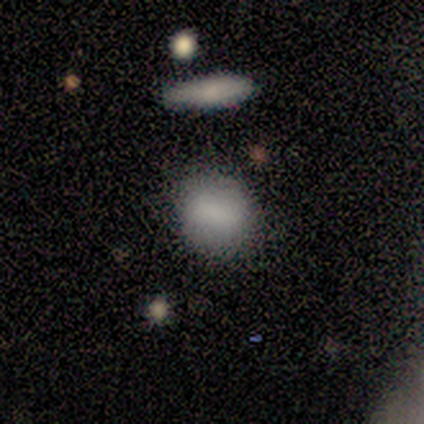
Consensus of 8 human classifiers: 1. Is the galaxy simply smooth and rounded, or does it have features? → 88% smooth, 12% featured or disk, 0% star or artifact.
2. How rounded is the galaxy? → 57% round, 43% in between, 0% cigar-shaped.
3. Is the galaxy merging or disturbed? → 62% none, 38% minor disturbance, 0% major disturbance, 0% merger.